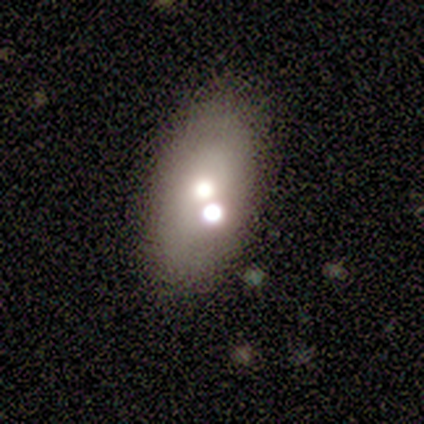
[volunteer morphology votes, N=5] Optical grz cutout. It shows a smooth galaxy with no disk features (100%) that is in between round and cigar-shaped (100%). Merging: none (80%).